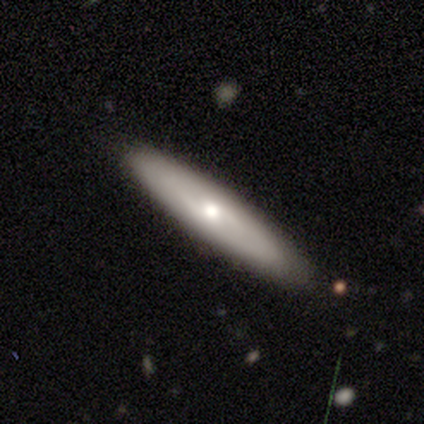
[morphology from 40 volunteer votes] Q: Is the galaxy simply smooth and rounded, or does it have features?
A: smooth — 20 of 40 (50%).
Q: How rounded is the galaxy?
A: cigar-shaped — 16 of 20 (80%).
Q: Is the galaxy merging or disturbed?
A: none — 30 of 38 (79%).